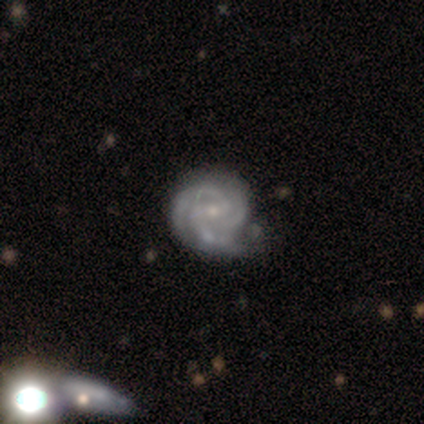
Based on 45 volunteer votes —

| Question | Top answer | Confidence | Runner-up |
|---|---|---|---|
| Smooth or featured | featured or disk | 96% | smooth (4%) |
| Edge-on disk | no | 100% | — |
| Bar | weak | 58% | no (30%) |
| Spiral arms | yes | 95% | no (5%) |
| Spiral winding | tight | 63% | medium (32%) |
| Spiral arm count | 3 | 73% | can't tell (15%) |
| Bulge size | small | 63% | moderate (33%) |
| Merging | none | 47% | minor disturbance (27%) |